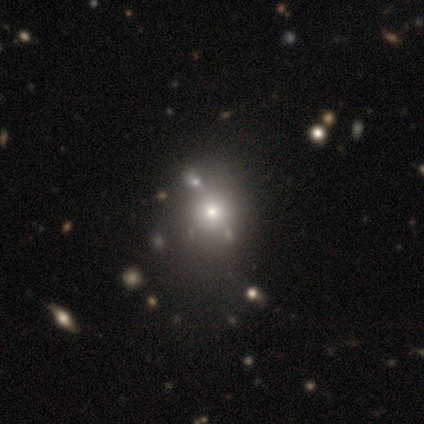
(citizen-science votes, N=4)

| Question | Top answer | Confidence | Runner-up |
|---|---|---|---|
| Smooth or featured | smooth | 75% | featured or disk (25%) |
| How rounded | in between | 67% | round (33%) |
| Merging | major disturbance | 50% | minor disturbance (25%) |